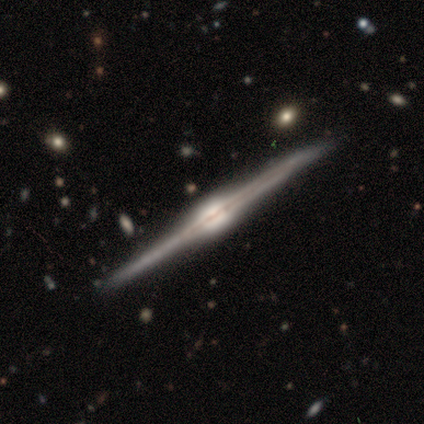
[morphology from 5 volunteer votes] Smooth or featured? 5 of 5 (100%) said featured or disk. Edge-on disk? 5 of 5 (100%) said yes. Edge-on bulge? 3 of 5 (60%) said rounded. Merging? 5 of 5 (100%) said none.